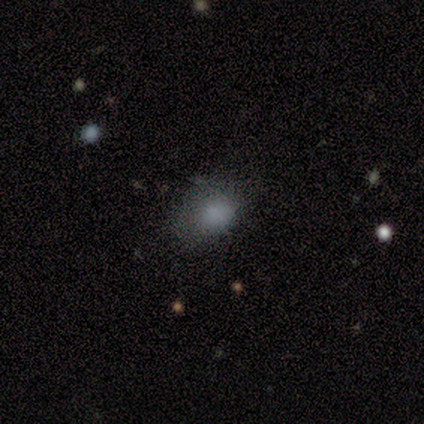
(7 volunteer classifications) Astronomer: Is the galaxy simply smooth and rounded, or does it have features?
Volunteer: smooth — 71%.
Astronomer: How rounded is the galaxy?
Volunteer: in between — 60% (runner-up: round, 40%).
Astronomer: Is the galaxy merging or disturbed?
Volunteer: none — 40%, tied with minor disturbance at 40%.